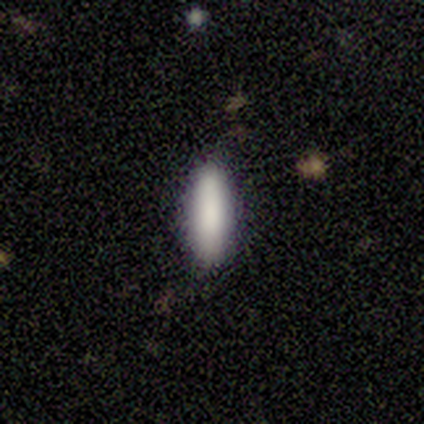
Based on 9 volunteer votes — Volunteers were most divided on "how rounded": in between: 78%, cigar-shaped: 22%, round: 0%. More confident: smooth or featured — smooth (100%); merging — none (100%).